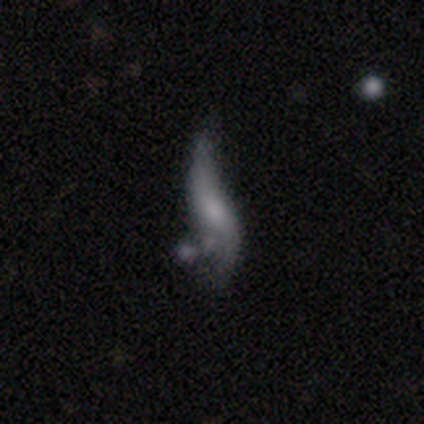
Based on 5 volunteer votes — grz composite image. It shows a featured or disk galaxy (100%) with no bar (75%), 2 (100%) loose (100%) spiral arms (75%) and a moderate central bulge (50%, tied with small). Merging: major disturbance (40%).